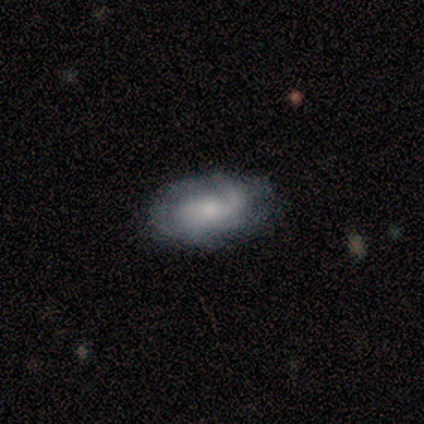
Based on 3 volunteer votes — smooth-or-featured: featured or disk: 100% | smooth: 0% | star or artifact: 0%
  disk-edge-on: no: 100% | yes: 0%
    bar: no: 67% | weak: 33% | strong: 0%
    has-spiral-arms: yes: 100% | no: 0%
      spiral-winding: medium: 67% | loose: 33% | tight: 0%
      spiral-arm-count: 2: 67% | can't tell: 33% | 1: 0% | 3: 0% | 4: 0% | more than 4: 0%
    bulge-size: moderate: 67% | none: 33% | dominant: 0% | large: 0% | small: 0%
  merging: none: 67% | minor disturbance: 33% | major disturbance: 0% | merger: 0%